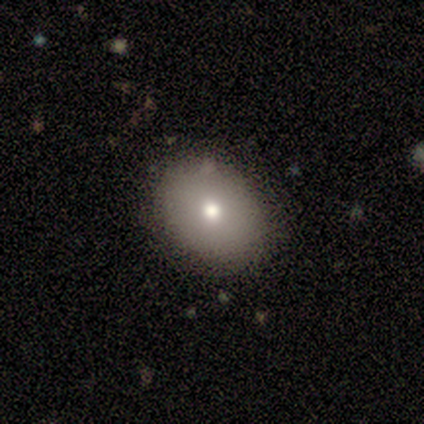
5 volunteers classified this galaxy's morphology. Smooth or featured?
  - smooth: 60% *
  - featured or disk: 20%
  - star or artifact: 20%
How rounded?
  - in between: 67% *
  - round: 33%
  - cigar-shaped: 0%
Merging?
  - none: 75% *
  - minor disturbance: 25%
  - major disturbance: 0%
  - merger: 0%